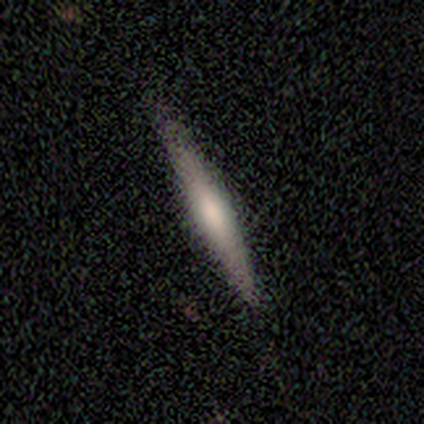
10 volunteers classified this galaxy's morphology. featured or disk 80%, smooth 20%, star or artifact 0%. Down the decision tree: edge-on disk — yes (100%); edge-on bulge — rounded (62%); merging — none (90%).